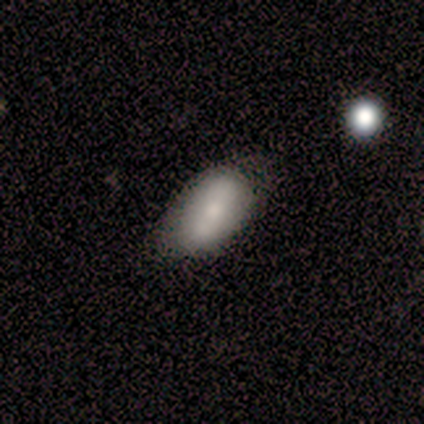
Smooth or featured: smooth — 100%
How rounded: in between — 100%
Merging: none — 40% (tied with minor disturbance — 40%)